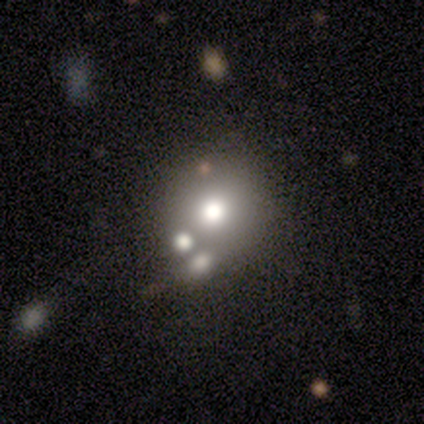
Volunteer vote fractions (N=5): Smooth or featured?
  - smooth: 60% *
  - featured or disk: 20%
  - star or artifact: 20%
How rounded?
  - round: 100% *
  - in between: 0%
  - cigar-shaped: 0%
Merging?
  - none: 50% * (tied)
  - minor disturbance: 50% * (tied)
  - major disturbance: 0%
  - merger: 0%